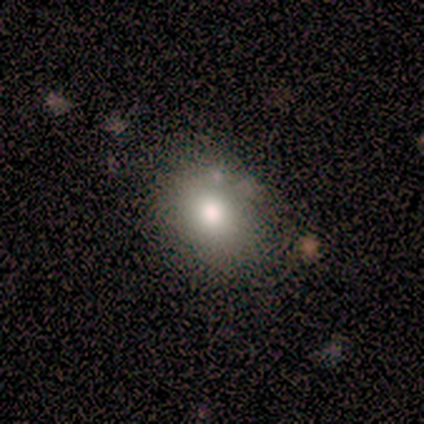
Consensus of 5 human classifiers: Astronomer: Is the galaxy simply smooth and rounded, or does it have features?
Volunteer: smooth — 80%.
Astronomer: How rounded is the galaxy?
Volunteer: round — 100%.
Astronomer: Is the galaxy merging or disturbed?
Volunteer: none — 60%.